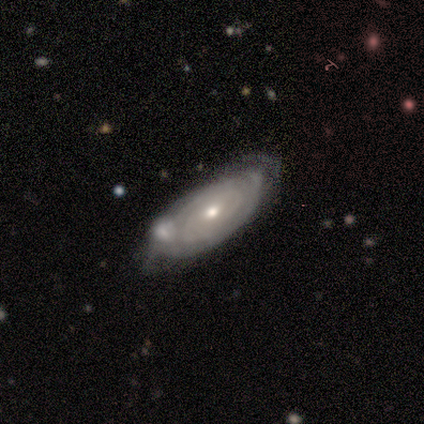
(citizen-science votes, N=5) Smooth or featured? 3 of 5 (60%) said smooth. How rounded? 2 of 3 (67%) said in between. Merging? 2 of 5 (40%, tied with minor disturbance) said none.